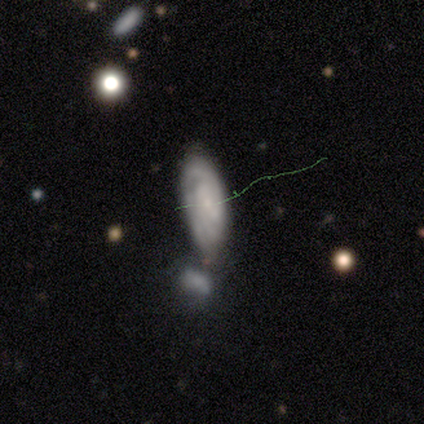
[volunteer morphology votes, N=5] Smooth or featured? featured or disk (80%)
Edge-on disk? yes (50%, tied with no)
Edge-on bulge? none (100%)
Merging? minor disturbance (40%, tied with merger)